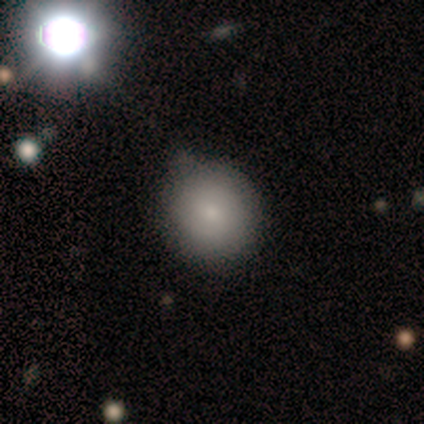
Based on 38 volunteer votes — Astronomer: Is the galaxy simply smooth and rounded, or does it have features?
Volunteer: smooth — 82%.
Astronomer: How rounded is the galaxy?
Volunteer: round — 87%.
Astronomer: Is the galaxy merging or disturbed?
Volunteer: none — 42% (runner-up: minor disturbance, 26%).